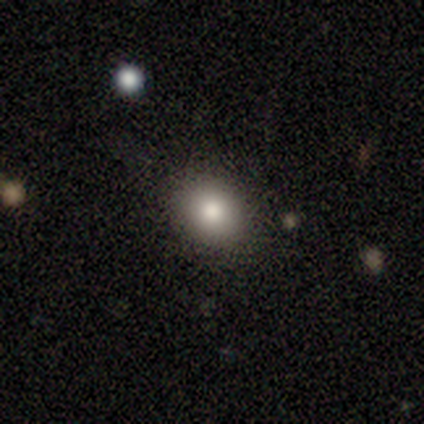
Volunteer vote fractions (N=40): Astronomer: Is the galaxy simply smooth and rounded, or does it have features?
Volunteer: smooth — 72%.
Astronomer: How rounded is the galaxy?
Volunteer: round — 62% (runner-up: in between, 38%).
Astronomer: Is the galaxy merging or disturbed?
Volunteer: none — 92%.